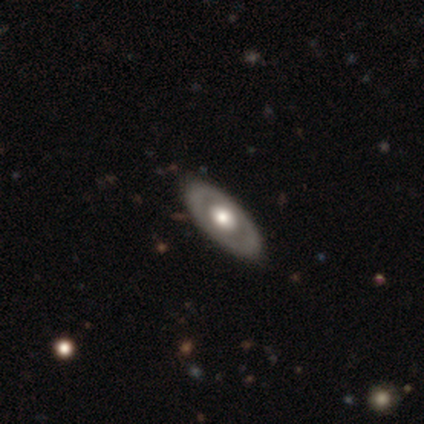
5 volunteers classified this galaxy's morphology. smooth_or_featured: featured or disk (p=0.80) [alt: smooth p=0.20]
disk_edge_on: yes (p=0.50) [tied with: no p=0.50]
edge_on_bulge: rounded (p=1.00)
merging: none (p=0.80) [alt: minor disturbance p=0.20]